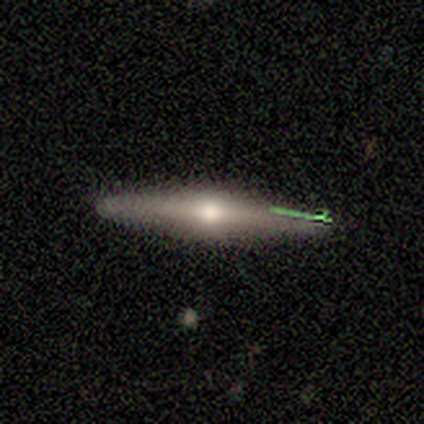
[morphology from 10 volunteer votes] Q: Smooth or featured?
A: featured or disk (60%); runner-up: smooth (40%)
Q: Edge-on disk?
A: yes (83%); runner-up: no (17%)
Q: Edge-on bulge?
A: rounded (100%)
Q: Merging?
A: none (100%)